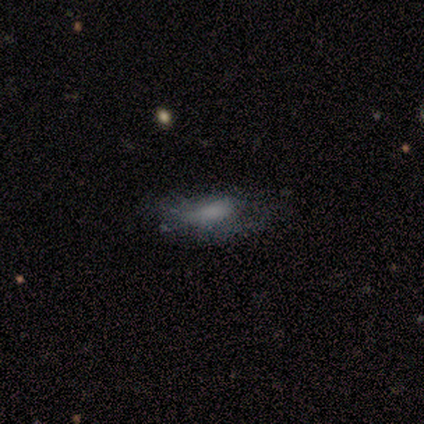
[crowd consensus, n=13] smooth 54%, featured or disk 23%, star or artifact 23%. Down the decision tree: how rounded — in between (57%); merging — none (40%, tied with minor disturbance).